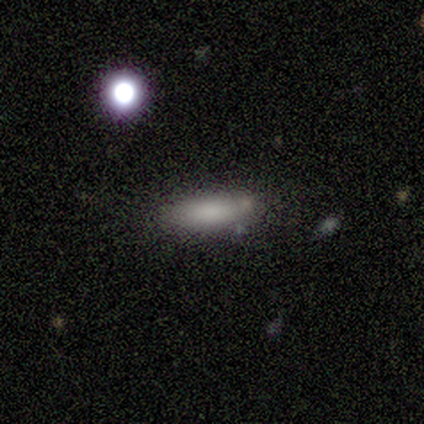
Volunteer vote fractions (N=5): A smooth galaxy with no disk features (100%) that is cigar-shaped (60%).

Vote fractions:
- Smooth or featured? smooth: 100% / featured or disk: 0% / star or artifact: 0%
- How rounded? cigar-shaped: 60% / in between: 40% / round: 0%
- Merging? none: 100% / minor disturbance: 0% / major disturbance: 0% / merger: 0%